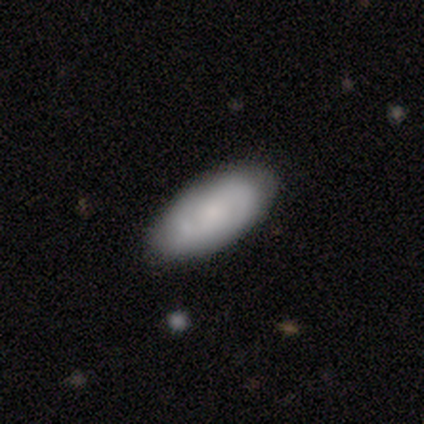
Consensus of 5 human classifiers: This is likely a smooth galaxy (60%). How rounded: clearly in between (100%). Merging: clearly none (100%).